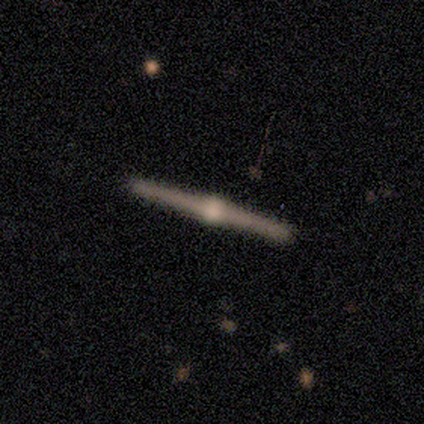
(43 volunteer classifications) Smooth or featured? featured or disk (88%)
Edge-on disk? yes (100%)
Edge-on bulge? rounded (100%)
Merging? none (71%)